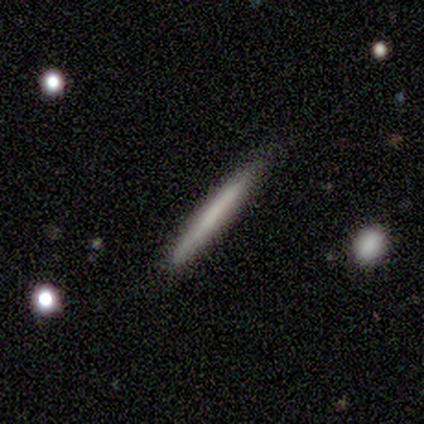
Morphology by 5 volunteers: smooth_or_featured: featured or disk (p=0.60) [alt: smooth p=0.40]
disk_edge_on: yes (p=1.00)
edge_on_bulge: none (p=1.00)
merging: none (p=1.00)